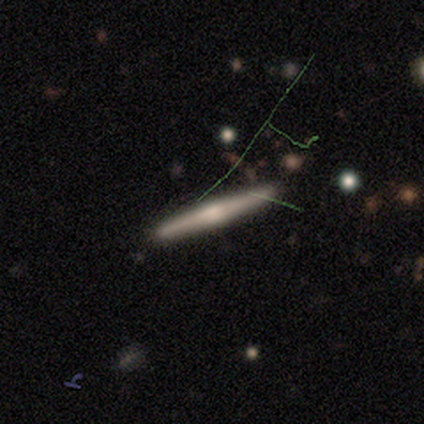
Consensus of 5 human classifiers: Morphology: type=featured or disk (80%); edge-on=yes (100%); edge-on bulge=rounded (100%); merging=none (80%).